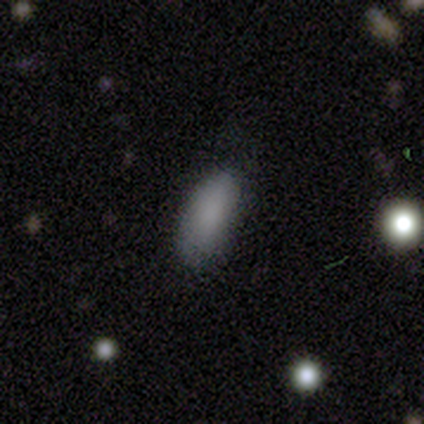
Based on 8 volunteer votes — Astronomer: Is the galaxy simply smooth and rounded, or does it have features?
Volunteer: smooth — 88%.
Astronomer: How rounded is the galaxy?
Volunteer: in between — 71%.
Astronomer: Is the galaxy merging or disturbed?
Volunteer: none — 71%.